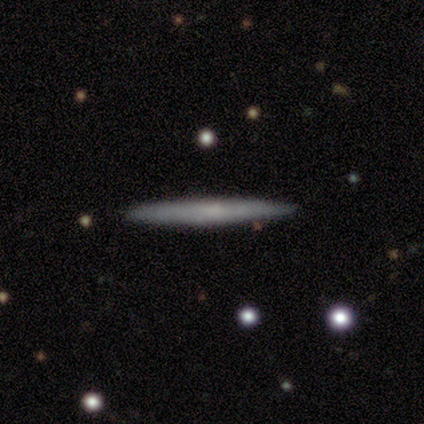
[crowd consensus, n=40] smooth_or_featured: smooth (p=0.50) [alt: featured or disk p=0.47]
how_rounded: cigar-shaped (p=1.00)
merging: none (p=0.92) [alt: minor disturbance p=0.08]